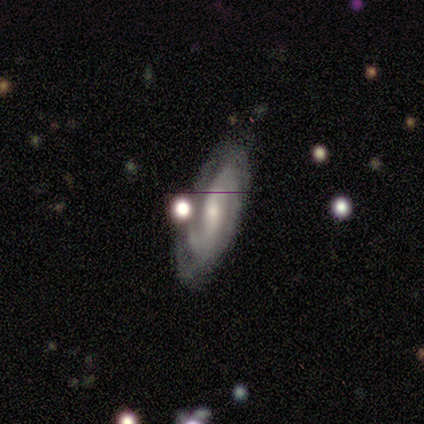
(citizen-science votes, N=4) Overall: featured or disk (100%). Edge-on disk: no (100%). Bar: weak (75%). Spiral arms: yes (100%). Spiral arm count: 2 (50%, tied with can't tell). Spiral winding: tight (50%, tied with medium). Bulge size: moderate (50%, tied with small). Merging: none (75%).